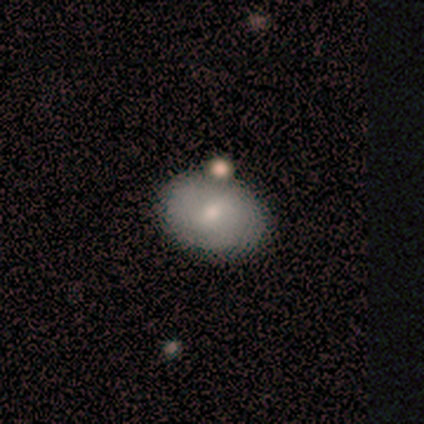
Smooth or featured? smooth (75%)
How rounded? in between (67%)
Merging? none (50%)